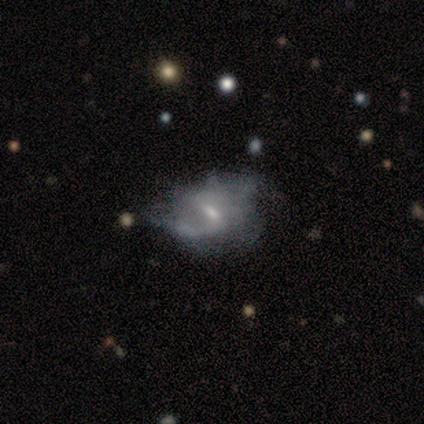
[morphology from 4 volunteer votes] Overall: featured or disk (75%). Edge-on disk: no (100%). Bar: weak (100%). Spiral arms: yes (100%). Spiral arm count: 2 (67%; 1 33%). Spiral winding: loose (67%; medium 33%). Bulge size: small (100%). Merging: none (50%, tied with minor disturbance).